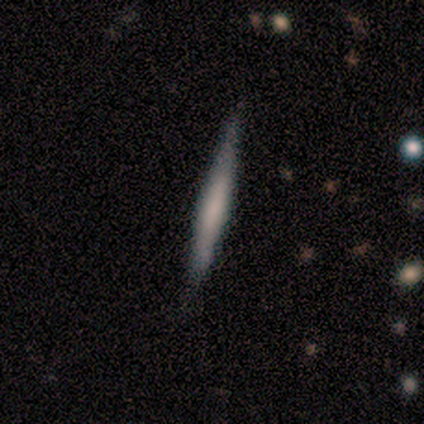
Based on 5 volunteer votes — A featured or disk galaxy (60%) viewed edge-on (100%) with no central bulge (100%).

Vote fractions:
- Smooth or featured? featured or disk: 60% / smooth: 40% / star or artifact: 0%
- Edge-on disk? yes: 100% / no: 0%
- Edge-on bulge? none: 100% / boxy: 0% / rounded: 0%
- Merging? none: 80% / minor disturbance: 20% / major disturbance: 0% / merger: 0%